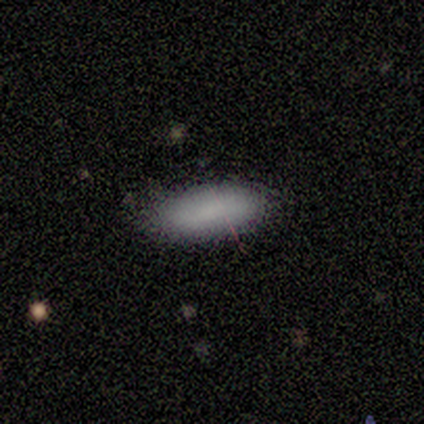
Smooth or featured?
  - smooth: 100% *
  - featured or disk: 0%
  - star or artifact: 0%
How rounded?
  - in between: 60% *
  - cigar-shaped: 40%
  - round: 0%
Merging?
  - none: 100% *
  - minor disturbance: 0%
  - major disturbance: 0%
  - merger: 0%